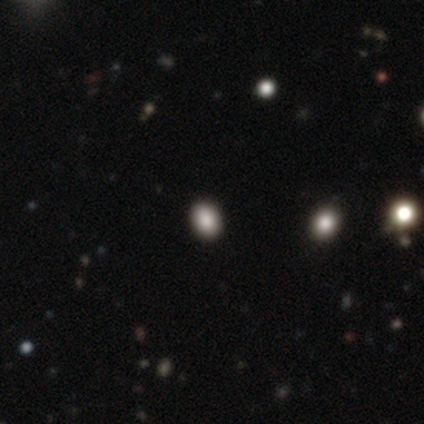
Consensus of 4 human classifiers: smooth-or-featured: smooth: 50% | featured or disk: 25% | star or artifact: 25%
  how-rounded: round: 50% (tied) | in between: 50% (tied) | cigar-shaped: 0%
  merging: none: 100% | minor disturbance: 0% | major disturbance: 0% | merger: 0%